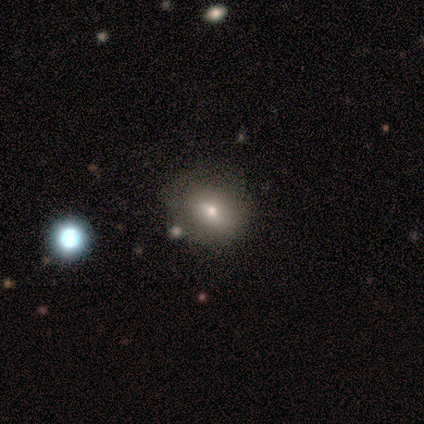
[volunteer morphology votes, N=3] Smooth or featured: smooth — 100%
How rounded: round — 67% (in between — 33%)
Merging: minor disturbance — 67% (none — 33%)